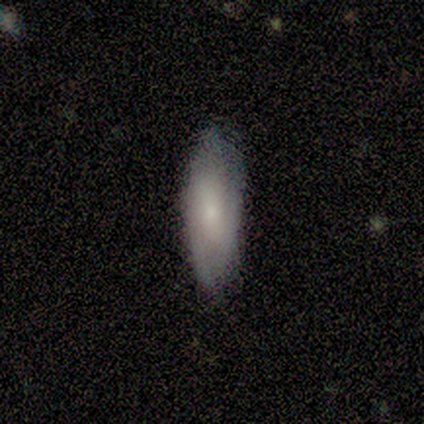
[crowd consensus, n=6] smooth_or_featured: featured or disk (p=0.67) [alt: smooth p=0.33]
disk_edge_on: no (p=1.00)
bar: no (p=0.75) [alt: strong p=0.25]
has_spiral_arms: yes (p=1.00)
spiral_winding: tight (p=0.75) [alt: loose p=0.25]
spiral_arm_count: 2 (p=0.50) [tied with: 3 p=0.50]
bulge_size: small (p=0.75) [alt: none p=0.25]
merging: none (p=1.00)